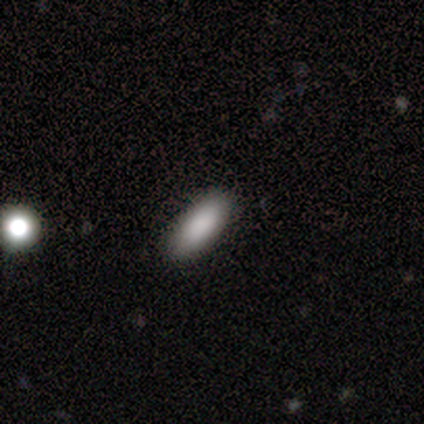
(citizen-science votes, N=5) Volunteers were most divided on "smooth or featured": smooth: 80%, featured or disk: 20%, star or artifact: 0%. More confident: how rounded — in between (100%); merging — none (100%).